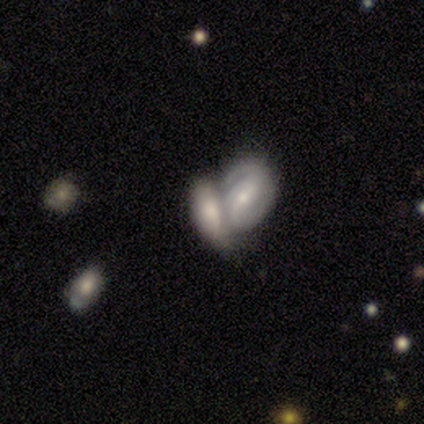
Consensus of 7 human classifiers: This is clearly a featured or disk galaxy (86%). It is clearly not viewed edge-on (100%). Bar: possibly weak (50%). Spiral arm pattern: clearly yes (83%). Spiral arm count: likely 1 (60%). Spiral winding: likely loose (60%). Central bulge: clearly moderate (100%). Merging: clearly merger (86%).